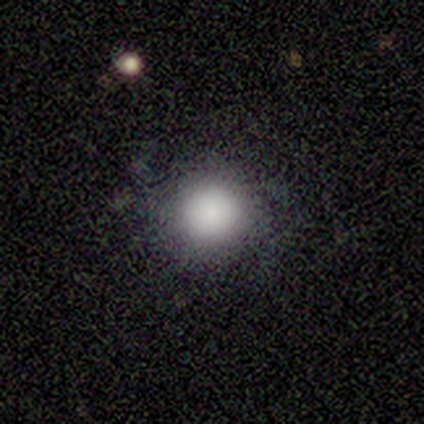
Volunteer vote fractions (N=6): This is likely a smooth galaxy (67%). How rounded: likely round (75%). Merging: likely none (60%).